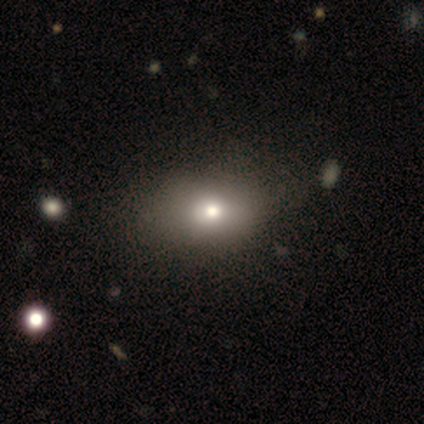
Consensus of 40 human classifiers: Smooth or featured?
  - smooth: 72% *
  - featured or disk: 20%
  - star or artifact: 8%
How rounded?
  - in between: 90% *
  - round: 10%
  - cigar-shaped: 0%
Merging?
  - none: 46% *
  - minor disturbance: 8%
  - major disturbance: 8%
  - merger: 3%